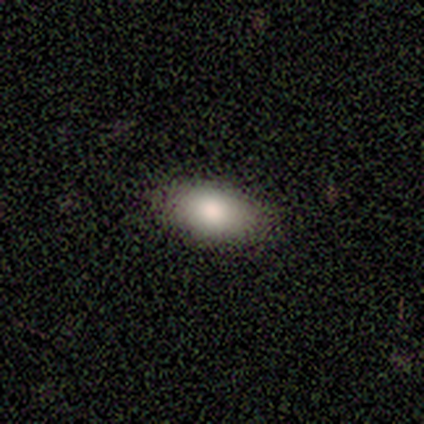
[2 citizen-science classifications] This appears to be a smooth galaxy with no disk features (100%) that is in between round and cigar-shaped (100%). Merging: none (100%).